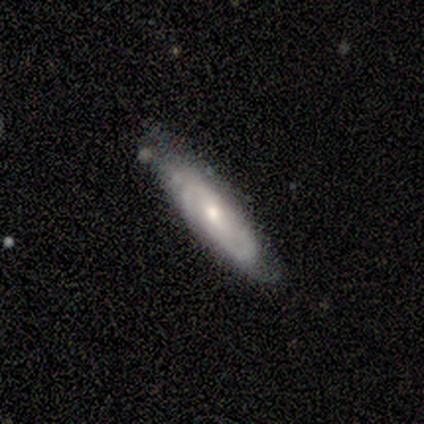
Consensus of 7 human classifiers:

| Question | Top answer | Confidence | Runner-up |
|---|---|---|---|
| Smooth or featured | featured or disk | 86% | smooth (14%) |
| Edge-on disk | no | 100% | — |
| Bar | no | 83% | weak (17%) |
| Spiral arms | yes | 83% | no (17%) |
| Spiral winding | tight | 60% | medium (40%) |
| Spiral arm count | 2 | 40% | tied: can't tell (40%) |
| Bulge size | small | 50% | moderate (33%) |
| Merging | none | 100% | — |